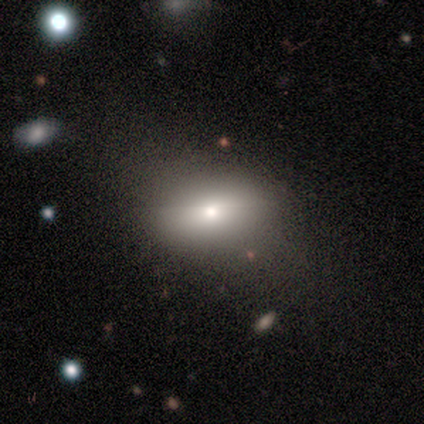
This is clearly a smooth galaxy (100%). How rounded: likely in between (60%). Merging: likely none (60%).